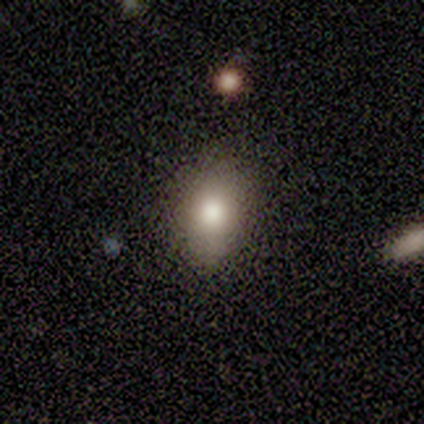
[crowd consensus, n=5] A smooth galaxy with no disk features (80%) that is in between round and cigar-shaped (100%). Merging: none (80%).